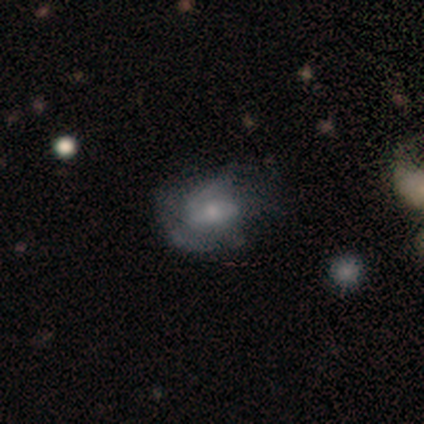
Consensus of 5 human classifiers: A featured or disk galaxy (100%) with no bar (80%), loose (67%) spiral arms (60%) and a small central bulge (80%). Merging: none (40%, tied with minor disturbance).